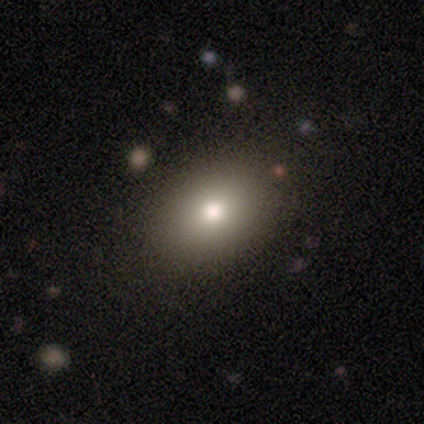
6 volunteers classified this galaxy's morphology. smooth-or-featured: smooth: 50% | star or artifact: 33% | featured or disk: 17%
  how-rounded: in between: 67% | round: 33% | cigar-shaped: 0%
  merging: none: 50% | minor disturbance: 25% | merger: 25% | major disturbance: 0%